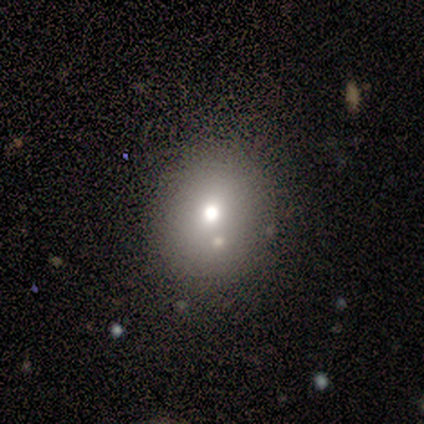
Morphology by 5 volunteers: smooth_or_featured: smooth (p=0.80) [alt: star or artifact p=0.20]
how_rounded: round (p=0.75) [alt: in between p=0.25]
merging: none (p=1.00)